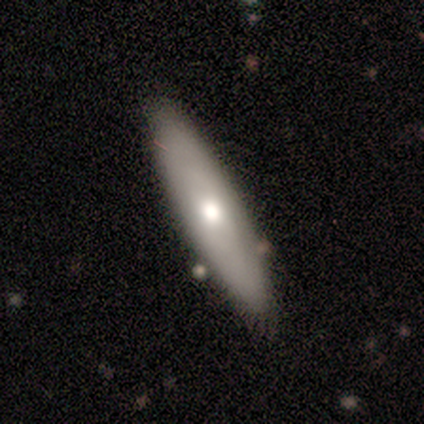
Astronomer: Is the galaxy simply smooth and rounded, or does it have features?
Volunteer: smooth — 60% (runner-up: featured or disk, 38%).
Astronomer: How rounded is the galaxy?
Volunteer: cigar-shaped — 54% (runner-up: in between, 46%).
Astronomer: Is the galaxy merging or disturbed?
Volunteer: none — 74%.